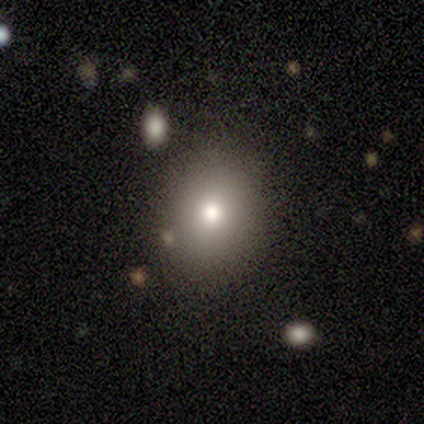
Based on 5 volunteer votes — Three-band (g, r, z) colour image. It shows a smooth galaxy with no disk features (40%, tied with featured or disk) that is in between round and cigar-shaped (100%). Merging: none (75%).